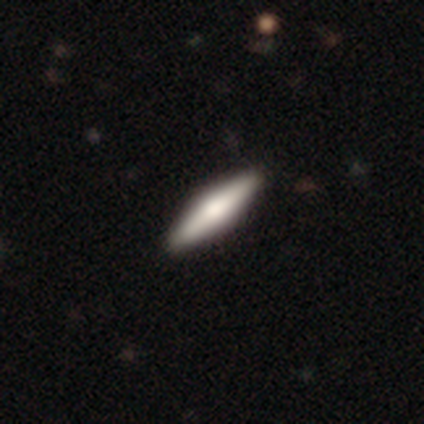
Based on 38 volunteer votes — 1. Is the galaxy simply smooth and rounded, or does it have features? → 58% featured or disk, 42% smooth, 0% star or artifact.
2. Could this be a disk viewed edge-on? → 100% yes, 0% no.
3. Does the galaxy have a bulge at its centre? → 91% rounded, 9% boxy, 0% none.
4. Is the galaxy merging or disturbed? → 82% none, 3% minor disturbance, 0% major disturbance, 0% merger.